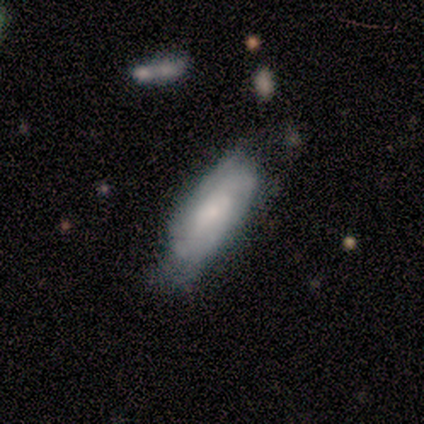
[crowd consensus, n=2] smooth-or-featured: smooth: 100% | featured or disk: 0% | star or artifact: 0%
  how-rounded: in between: 50% (tied) | cigar-shaped: 50% (tied) | round: 0%
  merging: none: 50% (tied) | minor disturbance: 50% (tied) | major disturbance: 0% | merger: 0%